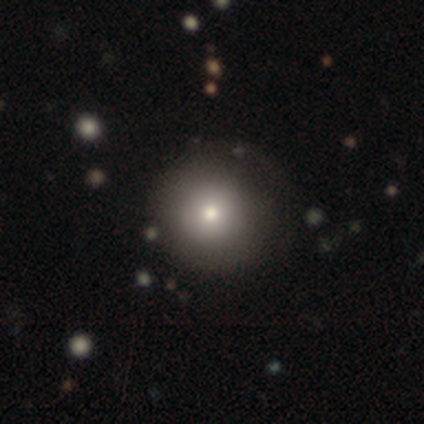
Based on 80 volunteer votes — Smooth or featured? smooth (88%)
How rounded? round (97%)
Merging? none (39%)